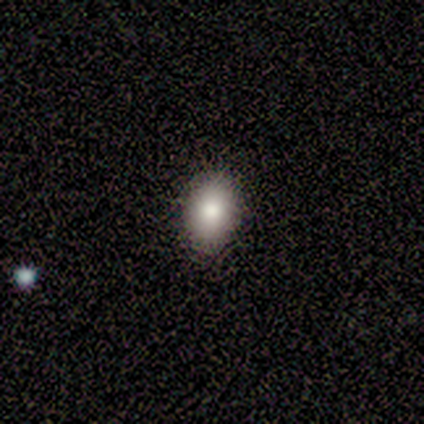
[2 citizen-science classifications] Smooth or featured?
  - smooth: 100% *
  - featured or disk: 0%
  - star or artifact: 0%
How rounded?
  - in between: 100% *
  - round: 0%
  - cigar-shaped: 0%
Merging?
  - none: 100% *
  - minor disturbance: 0%
  - major disturbance: 0%
  - merger: 0%